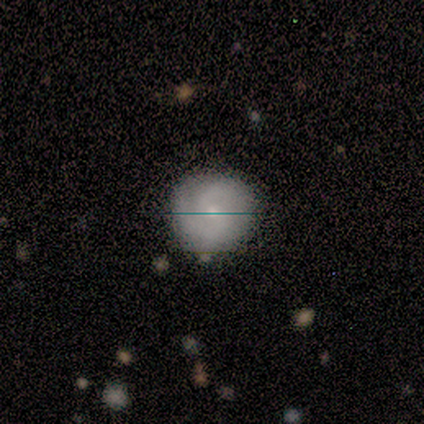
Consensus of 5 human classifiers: Q: Smooth or featured?
A: featured or disk (60%); runner-up: smooth (40%)
Q: Edge-on disk?
A: no (100%)
Q: Bar?
A: no (67%); runner-up: weak (33%)
Q: Spiral arms?
A: yes (100%)
Q: Spiral winding?
A: medium (67%); runner-up: tight (33%)
Q: Spiral arm count?
A: 2 (100%)
Q: Bulge size?
A: small (67%); runner-up: moderate (33%)
Q: Merging?
A: none (100%)